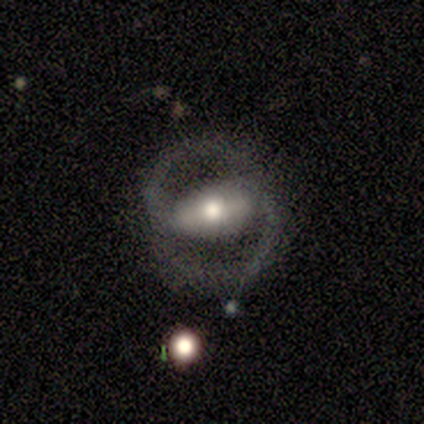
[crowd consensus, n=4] Morphology: type=featured or disk (75%); edge-on=no (100%); bar=strong (100%); spiral arms=yes (100%); winding=loose (67%); arm count=2 (100%); bulge=moderate (67%); merging=none (100%).